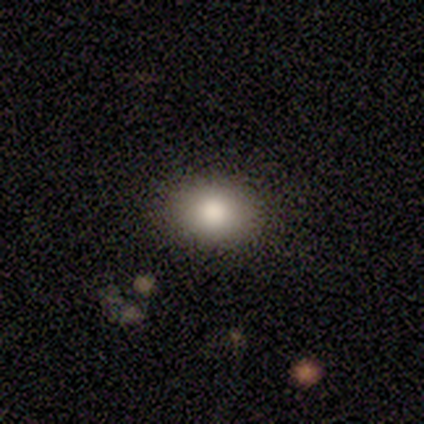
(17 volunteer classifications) This is clearly a smooth galaxy (88%). How rounded: likely in between (73%). Merging: clearly none (100%).